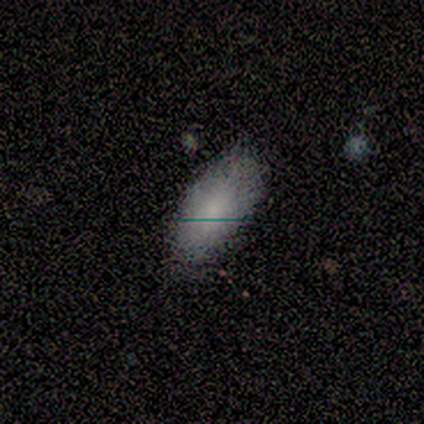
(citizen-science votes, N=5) Smooth or featured: smooth — 80% (star or artifact — 20%)
How rounded: in between — 100%
Merging: none — 50% (minor disturbance — 25%)